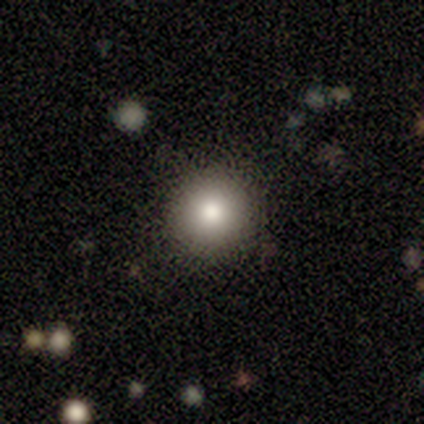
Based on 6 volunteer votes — Smooth or featured: smooth — 33% (tied with featured or disk — 33%; star or artifact — 33%)
How rounded: round — 100%
Merging: none — 75% (minor disturbance — 25%)